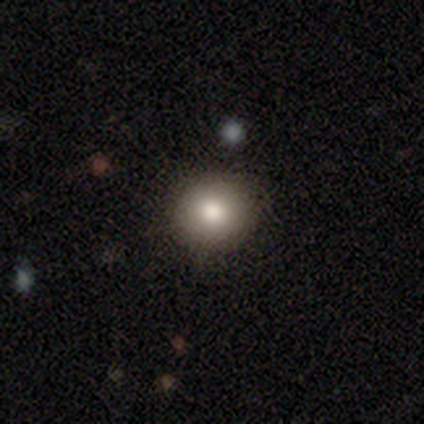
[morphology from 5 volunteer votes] A smooth galaxy with no disk features (100%) that is round (80%).

Vote fractions:
- Smooth or featured? smooth: 100% / featured or disk: 0% / star or artifact: 0%
- How rounded? round: 80% / in between: 20% / cigar-shaped: 0%
- Merging? none: 80% / minor disturbance: 20% / major disturbance: 0% / merger: 0%